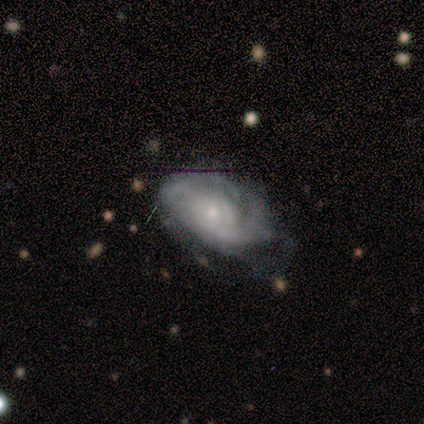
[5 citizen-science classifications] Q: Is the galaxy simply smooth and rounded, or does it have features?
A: featured or disk — 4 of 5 (80%).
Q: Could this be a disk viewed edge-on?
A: no — 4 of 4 (100%).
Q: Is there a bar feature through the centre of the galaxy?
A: weak — 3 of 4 (75%).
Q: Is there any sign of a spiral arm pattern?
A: yes — 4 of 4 (100%).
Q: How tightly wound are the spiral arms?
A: tight — 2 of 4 (50%, tied with medium).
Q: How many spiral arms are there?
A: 1 — 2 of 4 (50%).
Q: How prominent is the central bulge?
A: moderate — 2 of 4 (50%).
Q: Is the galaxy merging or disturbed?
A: none — 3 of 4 (75%).